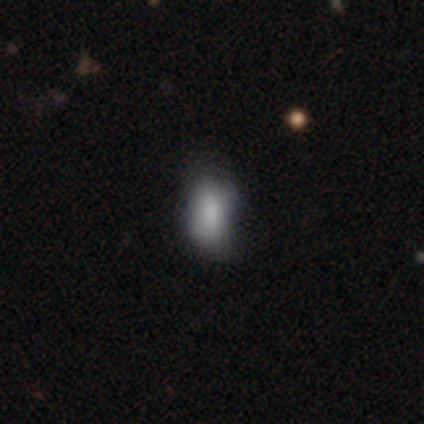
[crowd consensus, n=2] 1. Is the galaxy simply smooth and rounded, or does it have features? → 100% smooth, 0% featured or disk, 0% star or artifact.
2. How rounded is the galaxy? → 100% in between, 0% round, 0% cigar-shaped.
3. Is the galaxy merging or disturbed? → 100% none, 0% minor disturbance, 0% major disturbance, 0% merger.